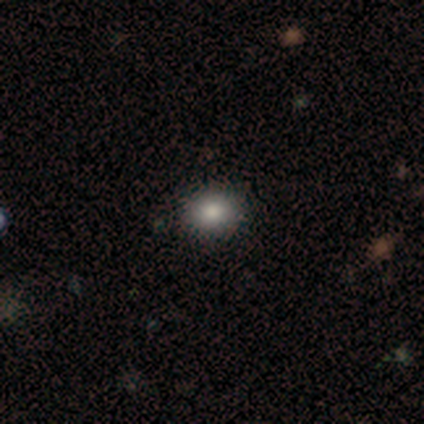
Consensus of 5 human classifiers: Volunteers were most divided on "how rounded" (2-way tie): round: 50%, in between: 50%, cigar-shaped: 0%. More confident: merging — none (100%); smooth or featured — smooth (80%).